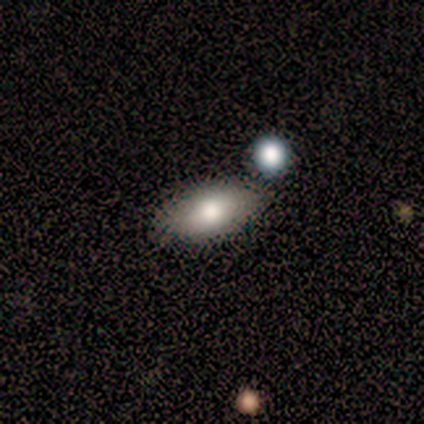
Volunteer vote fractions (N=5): Smooth or featured: smooth — 80% (star or artifact — 20%)
How rounded: in between — 75% (cigar-shaped — 25%)
Merging: none — 100%